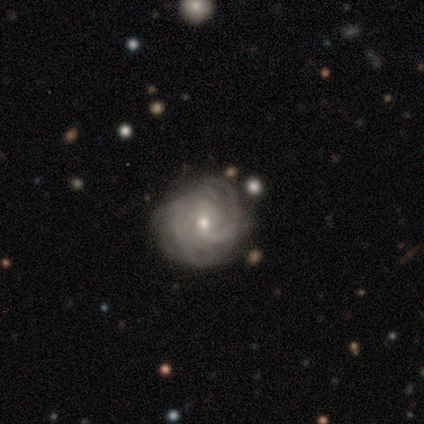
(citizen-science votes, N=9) This appears to be a featured or disk galaxy (100%) with a weak bar (57%), tight (86%) spiral arms (100%) and a moderate central bulge (57%). Merging: none (56%).